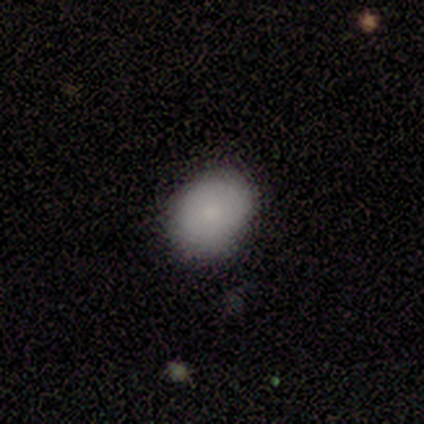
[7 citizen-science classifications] Smooth or featured? 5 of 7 (71%) said smooth. How rounded? 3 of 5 (60%) said round. Merging? 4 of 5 (80%) said none.